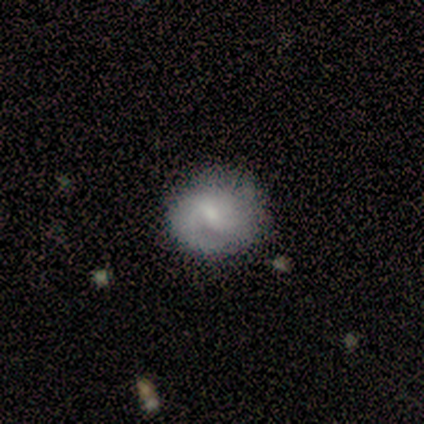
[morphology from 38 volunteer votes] Smooth or featured? 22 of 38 (58%) said featured or disk. Edge-on disk? 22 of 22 (100%) said no. Bar? 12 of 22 (55%) said weak. Spiral arms? 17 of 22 (77%) said yes. Spiral winding? 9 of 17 (53%) said medium. Spiral arm count? 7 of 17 (41%) said 2. Bulge size? 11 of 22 (50%) said small. Merging? 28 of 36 (78%) said none.